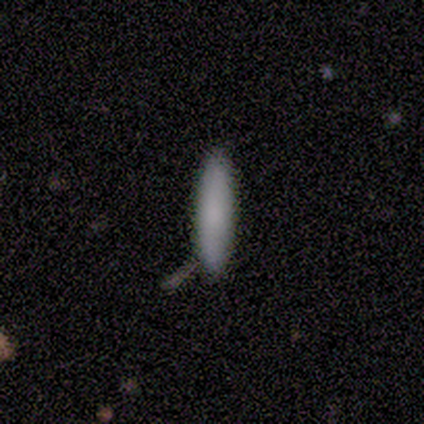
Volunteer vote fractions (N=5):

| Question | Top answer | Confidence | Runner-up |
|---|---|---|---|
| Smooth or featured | smooth | 100% | — |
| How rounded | cigar-shaped | 80% | in between (20%) |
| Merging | none | 80% | minor disturbance (20%) |